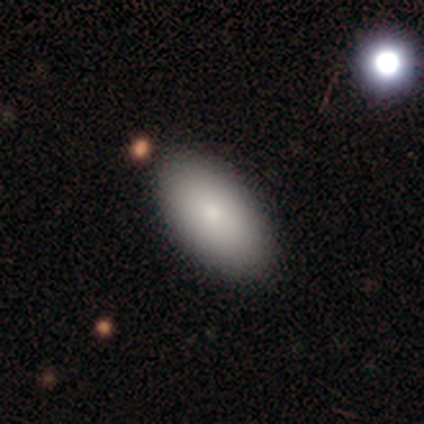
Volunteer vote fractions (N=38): Smooth or featured? smooth (79%)
How rounded? in between (100%)
Merging? none (66%)